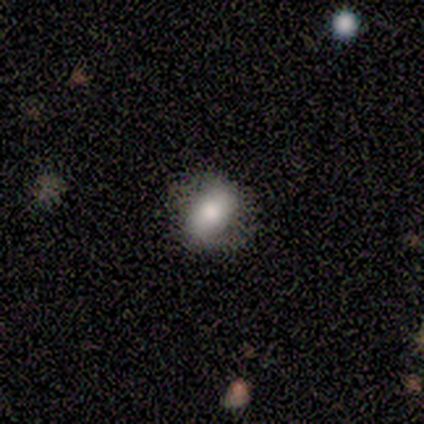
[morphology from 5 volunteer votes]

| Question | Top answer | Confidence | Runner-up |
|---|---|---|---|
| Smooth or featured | smooth | 80% | featured or disk (20%) |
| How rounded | round | 50% | tied: in between (50%) |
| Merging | none | 80% | minor disturbance (20%) |